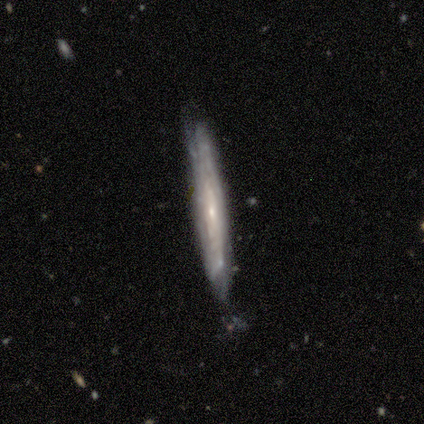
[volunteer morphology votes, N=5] smooth 60%, featured or disk 40%, star or artifact 0%. Down the decision tree: how rounded — cigar-shaped (100%); merging — none (60%).